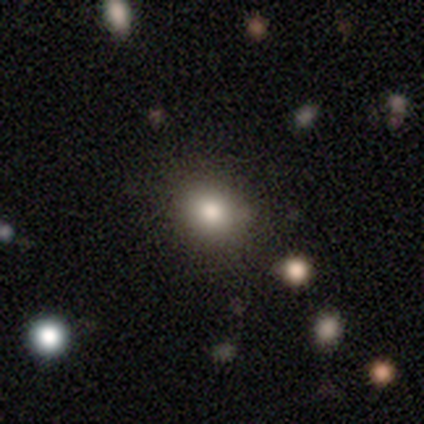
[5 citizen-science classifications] star or artifact 60%, smooth 40%, featured or disk 0%.